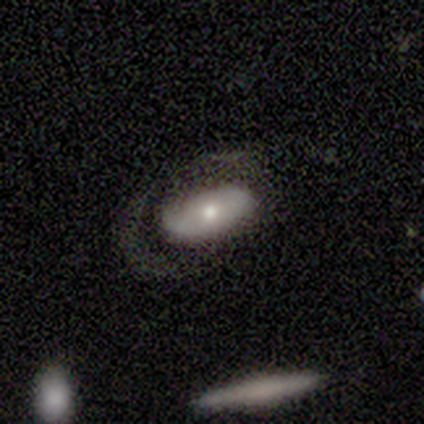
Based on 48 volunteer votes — A smooth galaxy with no disk features (52%) that is in between round and cigar-shaped (96%). Merging: none (48%).